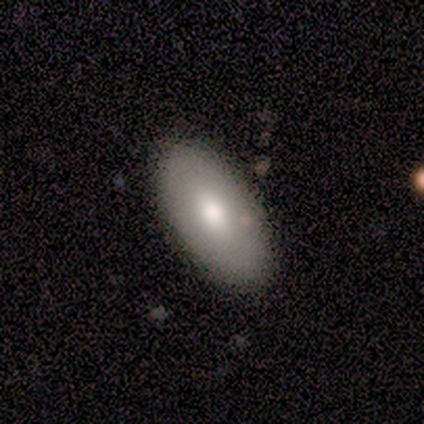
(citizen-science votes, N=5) Overall: smooth (80%). How rounded: in between (75%). Merging: none (80%).